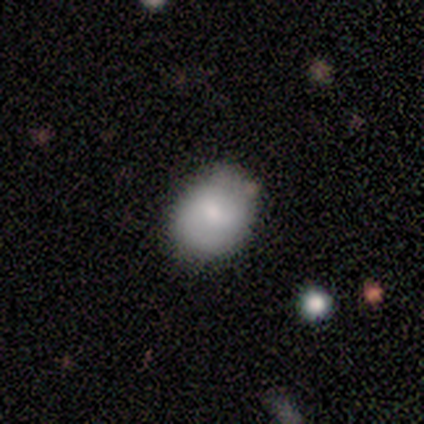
Overall: smooth (86%). How rounded: round (67%; in between 33%). Merging: none (86%).